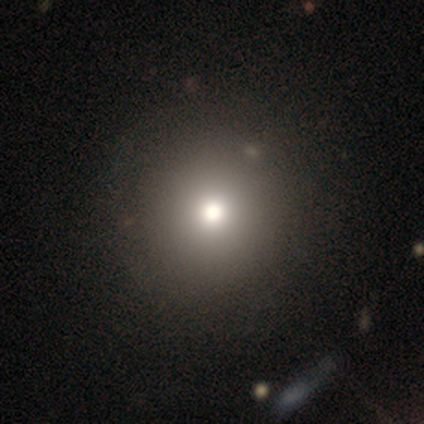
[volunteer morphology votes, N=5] A smooth galaxy with no disk features (80%) that is round (100%). Merging: none (100%).